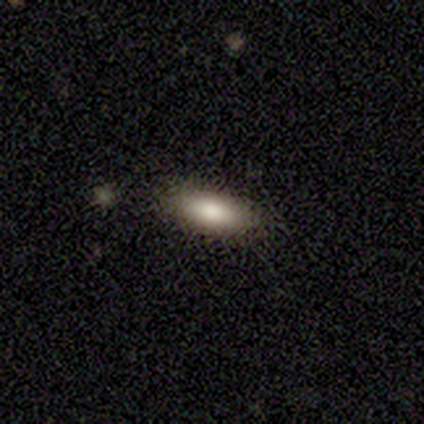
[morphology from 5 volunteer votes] Overall: smooth (80%). How rounded: cigar-shaped (100%). Merging: none (60%; minor disturbance 40%).